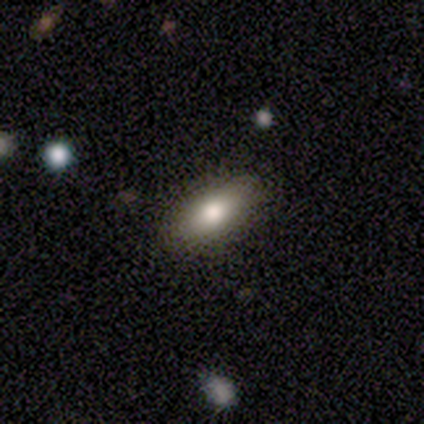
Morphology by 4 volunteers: Smooth or featured? smooth (75%)
How rounded? in between (100%)
Merging? none (75%)